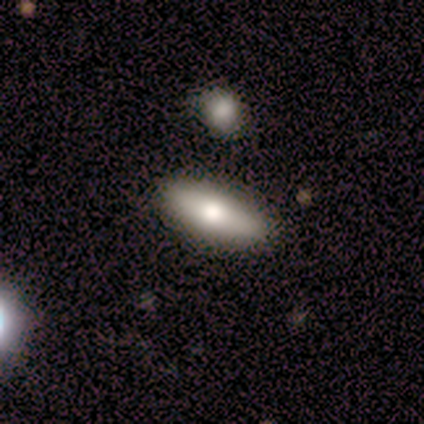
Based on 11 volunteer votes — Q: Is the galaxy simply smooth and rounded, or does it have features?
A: featured or disk — 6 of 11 (55%).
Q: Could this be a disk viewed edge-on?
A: yes — 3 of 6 (50%, tied with no).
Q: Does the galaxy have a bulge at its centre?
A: rounded — 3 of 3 (100%).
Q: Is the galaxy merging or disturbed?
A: none — 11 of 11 (100%).